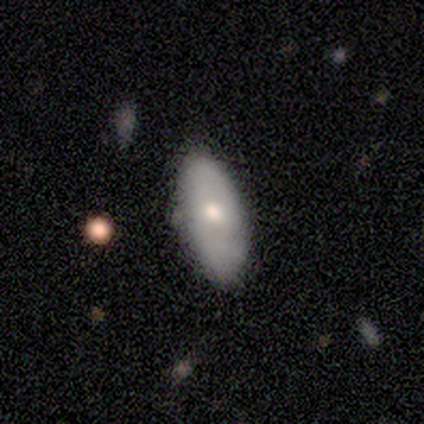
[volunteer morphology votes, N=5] Smooth or featured: smooth — 60% (featured or disk — 40%)
How rounded: in between — 100%
Merging: none — 60% (minor disturbance — 40%)